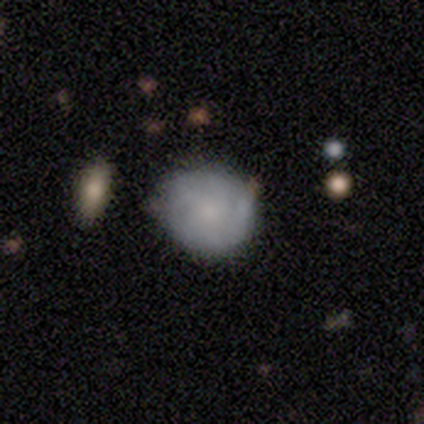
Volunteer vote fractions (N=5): Smooth or featured? smooth (60%)
How rounded? round (100%)
Merging? minor disturbance (80%)